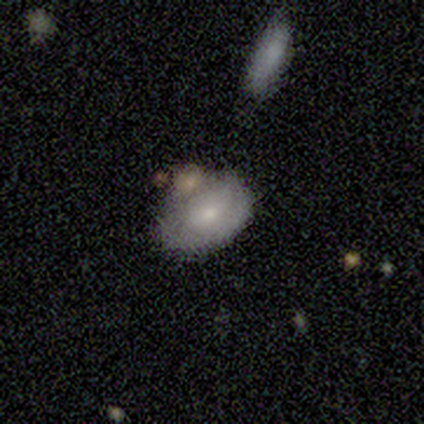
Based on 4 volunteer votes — Overall: smooth (75%). How rounded: in between (67%; round 33%). Merging: none (25%, tied with minor disturbance, major disturbance and merger).